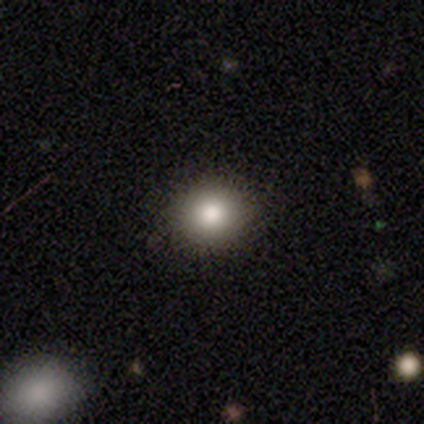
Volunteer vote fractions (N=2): Smooth or featured: smooth — 100%
How rounded: round — 100%
Merging: none — 100%